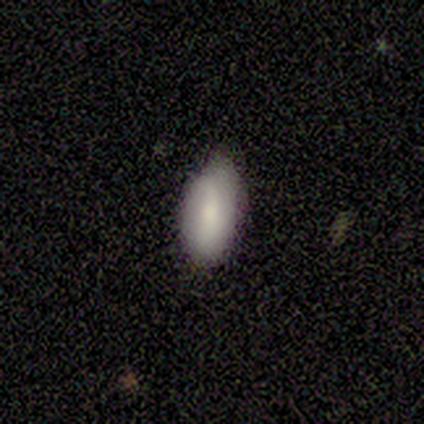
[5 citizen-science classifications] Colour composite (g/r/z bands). It shows a smooth galaxy with no disk features (80%) that is in between round and cigar-shaped (100%). Merging: none (80%).